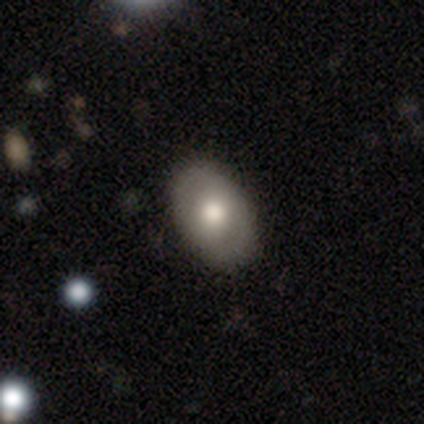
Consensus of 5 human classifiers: Smooth or featured: smooth — 80% (featured or disk — 20%)
How rounded: in between — 75% (round — 25%)
Merging: none — 100%